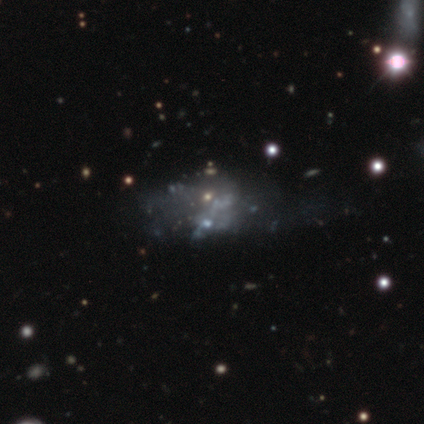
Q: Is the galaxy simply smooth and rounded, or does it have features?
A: featured or disk — 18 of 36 (50%).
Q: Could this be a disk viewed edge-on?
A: no — 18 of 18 (100%).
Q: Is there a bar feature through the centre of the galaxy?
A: no — 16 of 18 (89%).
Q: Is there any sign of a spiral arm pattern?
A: no — 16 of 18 (89%).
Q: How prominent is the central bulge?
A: none — 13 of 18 (72%).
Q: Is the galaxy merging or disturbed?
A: major disturbance — 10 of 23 (43%).